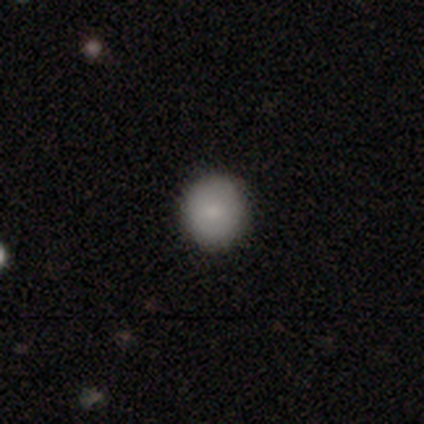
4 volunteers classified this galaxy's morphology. smooth_or_featured: smooth (p=1.00)
how_rounded: round (p=1.00)
merging: none (p=1.00)